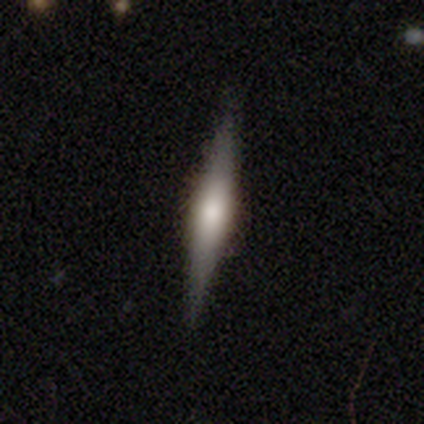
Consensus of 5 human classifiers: This is clearly a featured or disk galaxy (80%). It is clearly viewed edge-on (100%). Edge-on bulge: likely rounded (75%). Merging: clearly none (100%).